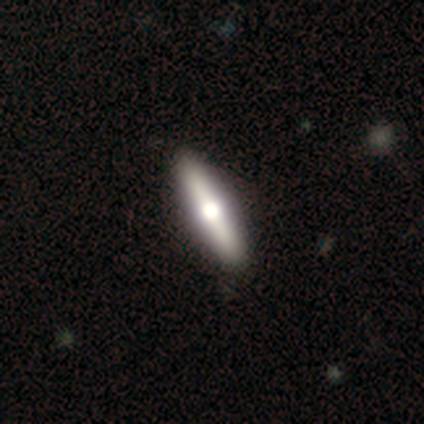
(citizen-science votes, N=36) Morphology: type=featured or disk (56%); edge-on=yes (85%); edge-on bulge=rounded (88%); merging=none (72%).